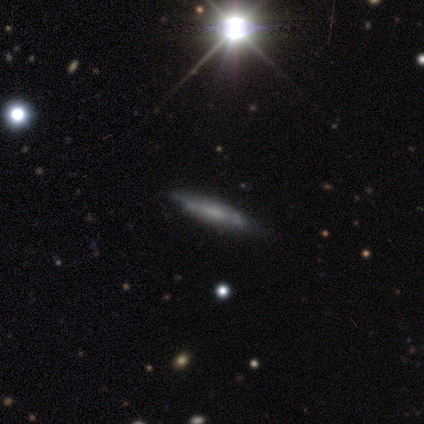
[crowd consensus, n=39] Smooth or featured? featured or disk (46%)
Edge-on disk? yes (83%)
Edge-on bulge? none (67%)
Merging? none (76%)